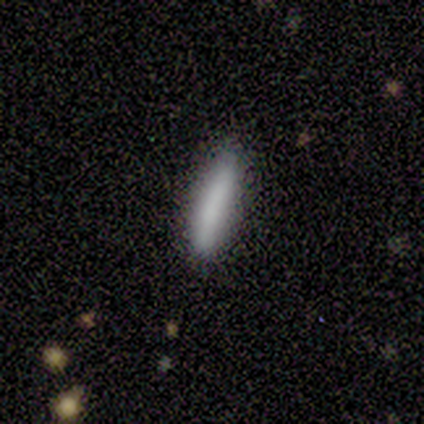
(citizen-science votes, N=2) A smooth galaxy with no disk features (50%, tied with featured or disk) that is cigar-shaped (100%).

Vote fractions:
- Smooth or featured? smooth: 50% (tied) / featured or disk: 50% (tied) / star or artifact: 0%
- How rounded? cigar-shaped: 100% / round: 0% / in between: 0%
- Merging? none: 100% / minor disturbance: 0% / major disturbance: 0% / merger: 0%